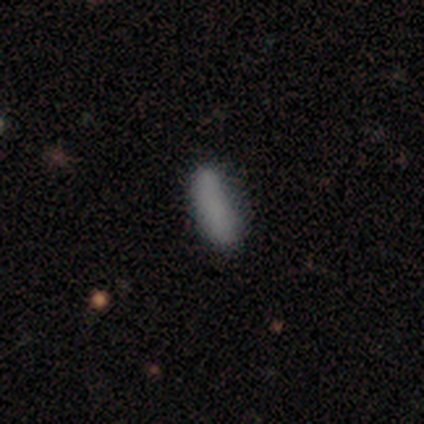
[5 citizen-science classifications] smooth-or-featured: smooth: 60% | featured or disk: 40% | star or artifact: 0%
  how-rounded: in between: 100% | round: 0% | cigar-shaped: 0%
  merging: none: 40% (tied) | minor disturbance: 40% (tied) | merger: 20% | major disturbance: 0%